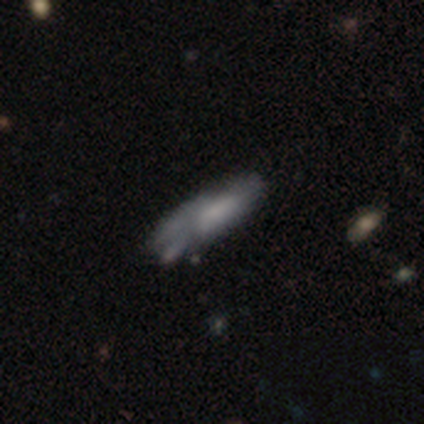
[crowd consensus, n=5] Smooth or featured? 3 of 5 (60%) said featured or disk. Edge-on disk? 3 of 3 (100%) said no. Bar? 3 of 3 (100%) said no. Spiral arms? 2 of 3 (67%) said no. Bulge size? 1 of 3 (33%, tied with moderate and none) said large. Merging? 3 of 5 (60%) said minor disturbance.